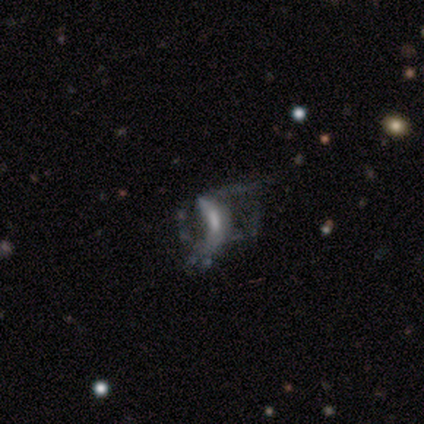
Q: Smooth or featured?
A: featured or disk (75%); runner-up: smooth (25%)
Q: Edge-on disk?
A: no (100%)
Q: Bar?
A: weak (67%); runner-up: no (33%)
Q: Spiral arms?
A: no (67%); runner-up: yes (33%)
Q: Bulge size?
A: small (67%); runner-up: none (33%)
Q: Merging?
A: major disturbance (75%); runner-up: merger (25%)